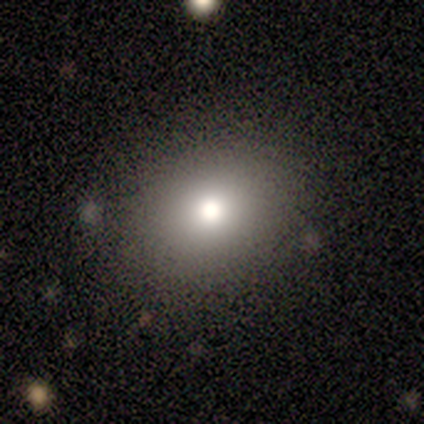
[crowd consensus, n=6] Q: Smooth or featured?
A: smooth (83%); runner-up: star or artifact (17%)
Q: How rounded?
A: round (80%); runner-up: in between (20%)
Q: Merging?
A: none (100%)